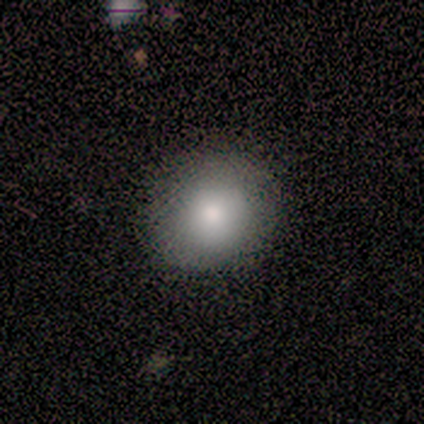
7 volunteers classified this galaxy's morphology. type=smooth (86%); roundness=round (83%); merging=none (86%).